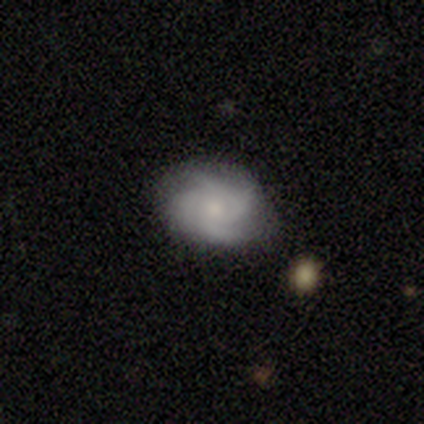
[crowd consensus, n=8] Smooth or featured? 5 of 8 (62%) said featured or disk. Edge-on disk? 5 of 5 (100%) said no. Bar? 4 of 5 (80%) said no. Spiral arms? 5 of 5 (100%) said yes. Spiral winding? 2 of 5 (40%, tied with medium) said tight. Spiral arm count? 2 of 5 (40%) said 4. Bulge size? 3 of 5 (60%) said moderate. Merging? 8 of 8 (100%) said none.